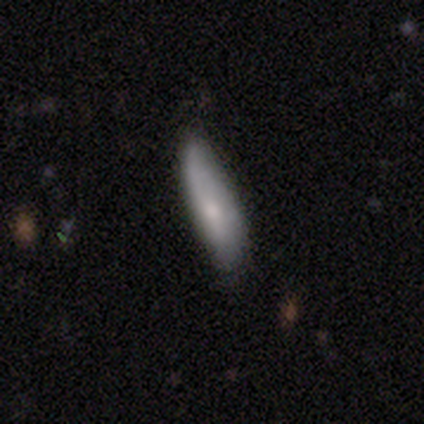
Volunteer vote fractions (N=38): A smooth galaxy with no disk features (63%) that is cigar-shaped (71%). Merging: none (57%).